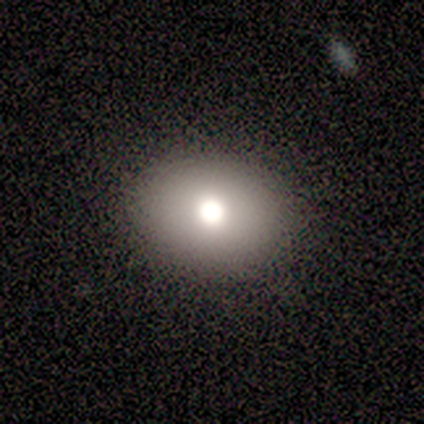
Smooth or featured? 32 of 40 (80%) said smooth. How rounded? 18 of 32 (56%) said round. Merging? 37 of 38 (97%) said none.